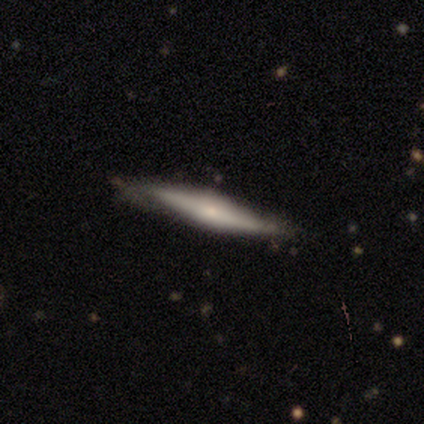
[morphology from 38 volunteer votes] A featured or disk galaxy (61%) viewed edge-on (96%) with a rounded central bulge (73%). Merging: none (81%).